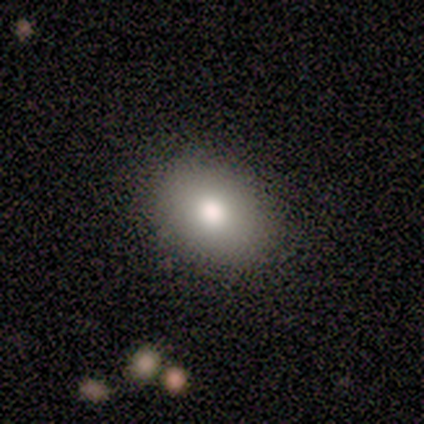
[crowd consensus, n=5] This is clearly a smooth galaxy (100%). How rounded: likely round (60%). Merging: clearly none (100%).